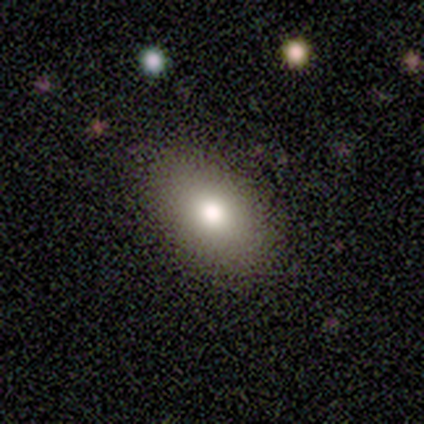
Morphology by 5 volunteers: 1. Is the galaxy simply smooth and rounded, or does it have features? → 80% smooth, 20% featured or disk, 0% star or artifact.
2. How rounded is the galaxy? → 100% in between, 0% round, 0% cigar-shaped.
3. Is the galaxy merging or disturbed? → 100% none, 0% minor disturbance, 0% major disturbance, 0% merger.